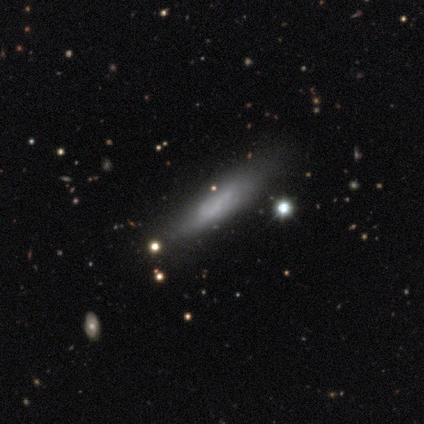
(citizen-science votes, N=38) Smooth or featured? 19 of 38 (50%) said featured or disk. Edge-on disk? 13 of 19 (68%) said yes. Edge-on bulge? 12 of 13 (92%) said none. Merging? 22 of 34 (65%) said none.